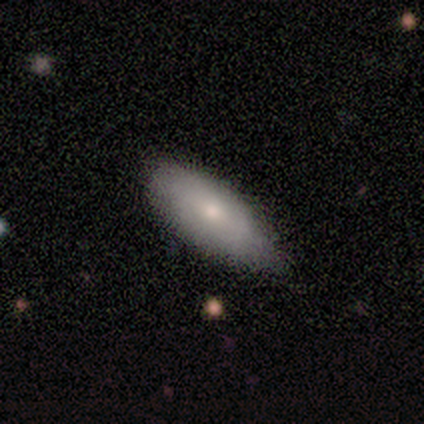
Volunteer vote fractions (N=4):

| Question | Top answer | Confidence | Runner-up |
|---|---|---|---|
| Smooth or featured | smooth | 100% | — |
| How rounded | in between | 100% | — |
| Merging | none | 50% | tied: minor disturbance (50%) |